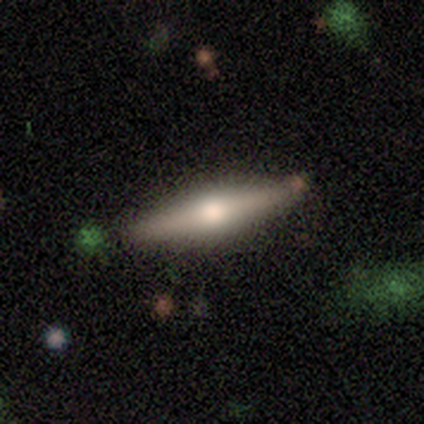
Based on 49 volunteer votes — This appears to be a featured or disk galaxy (78%) viewed edge-on (97%) with a rounded central bulge (89%). Merging: none (85%).